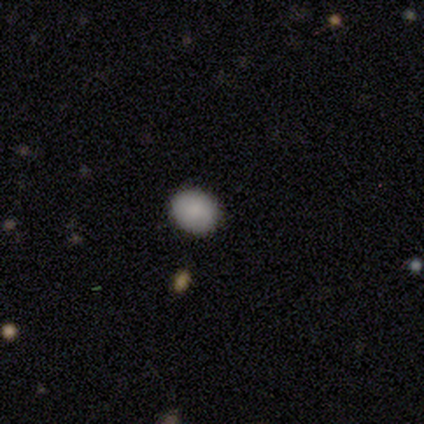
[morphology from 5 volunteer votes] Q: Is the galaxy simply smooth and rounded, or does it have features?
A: smooth — 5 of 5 (100%).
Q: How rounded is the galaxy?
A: round — 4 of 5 (80%).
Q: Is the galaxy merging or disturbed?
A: none — 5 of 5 (100%).